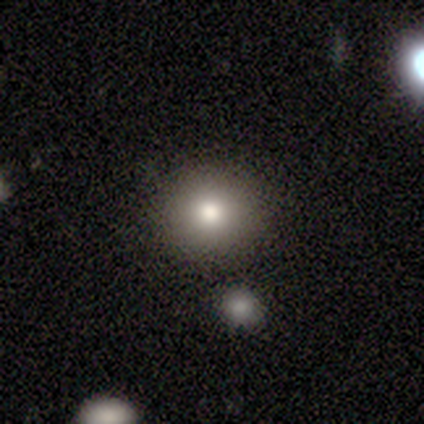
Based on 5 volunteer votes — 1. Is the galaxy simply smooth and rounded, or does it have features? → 60% smooth, 40% featured or disk, 0% star or artifact.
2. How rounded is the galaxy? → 100% round, 0% in between, 0% cigar-shaped.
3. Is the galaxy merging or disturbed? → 100% none, 0% minor disturbance, 0% major disturbance, 0% merger.